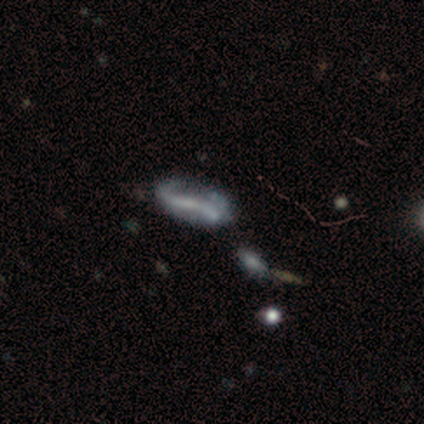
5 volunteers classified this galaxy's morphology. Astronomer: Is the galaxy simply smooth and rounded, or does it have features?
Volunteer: featured or disk — 100%.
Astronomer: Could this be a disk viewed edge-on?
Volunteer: no — 80%.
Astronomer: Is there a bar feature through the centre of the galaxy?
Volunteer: no — 75%.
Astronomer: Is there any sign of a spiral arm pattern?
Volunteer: no — 75%.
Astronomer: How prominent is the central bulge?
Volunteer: none — 75%.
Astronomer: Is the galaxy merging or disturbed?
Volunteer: none — 40%, tied with major disturbance at 40%.